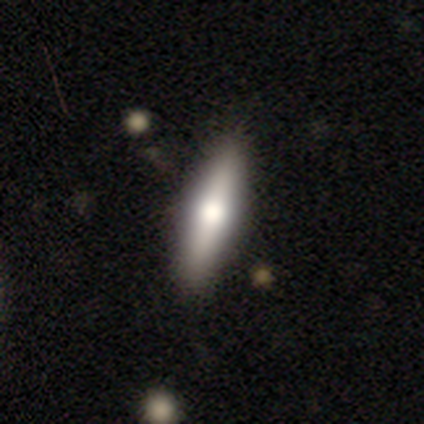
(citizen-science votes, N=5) Smooth or featured? featured or disk (40%, tied with star or artifact)
Edge-on disk? yes (100%)
Edge-on bulge? rounded (100%)
Merging? none (100%)